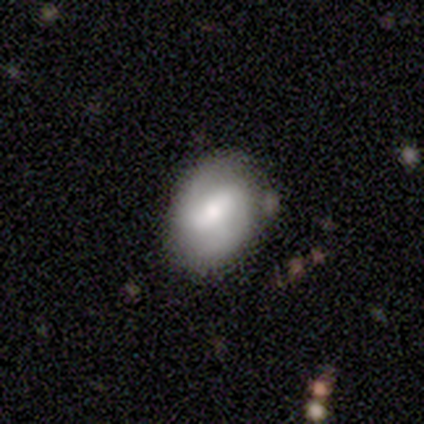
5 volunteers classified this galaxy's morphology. smooth-or-featured: smooth: 40% (tied) | featured or disk: 40% (tied) | star or artifact: 20%
  how-rounded: in between: 100% | round: 0% | cigar-shaped: 0%
  merging: none: 75% | minor disturbance: 25% | major disturbance: 0% | merger: 0%